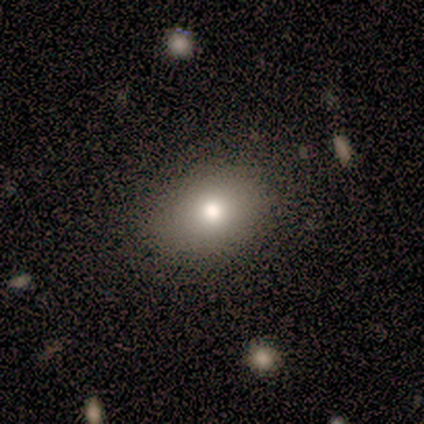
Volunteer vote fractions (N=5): Smooth or featured? smooth (60%)
How rounded? in between (100%)
Merging? none (75%)